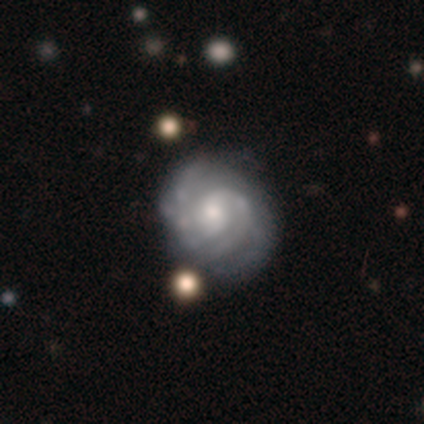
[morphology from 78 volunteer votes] Smooth or featured? featured or disk (95%)
Edge-on disk? no (97%)
Bar? no (65%)
Spiral arms? yes (90%)
Spiral winding? tight (55%)
Spiral arm count? can't tell (31%)
Bulge size? moderate (49%)
Merging? none (29%)